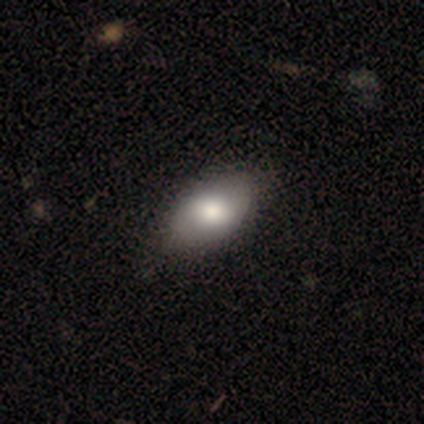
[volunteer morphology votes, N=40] A smooth galaxy with no disk features (70%) that is in between round and cigar-shaped (96%).

Vote fractions:
- Smooth or featured? smooth: 70% / featured or disk: 20% / star or artifact: 10%
- How rounded? in between: 96% / round: 4% / cigar-shaped: 0%
- Merging? none: 69% / minor disturbance: 6% / major disturbance: 3% / merger: 0%